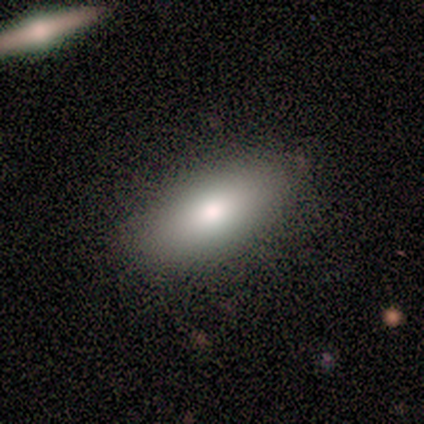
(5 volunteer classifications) Smooth or featured? smooth (80%)
How rounded? in between (75%)
Merging? none (80%)